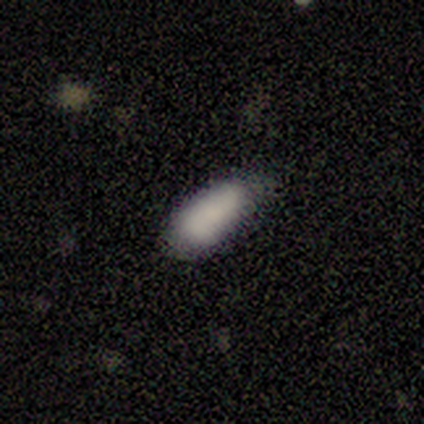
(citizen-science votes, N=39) Smooth or featured? 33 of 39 (85%) said smooth. How rounded? 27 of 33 (82%) said in between. Merging? 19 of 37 (51%) said none.